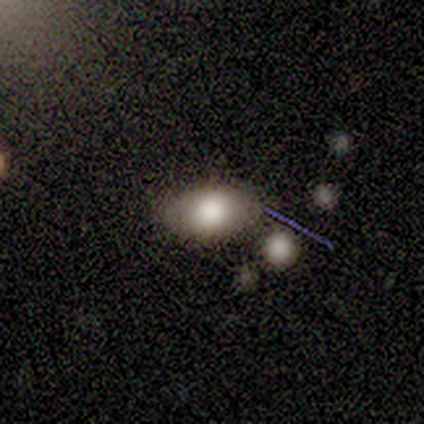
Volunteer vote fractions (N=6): smooth-or-featured: smooth: 83% | featured or disk: 17% | star or artifact: 0%
  how-rounded: in between: 100% | round: 0% | cigar-shaped: 0%
  merging: none: 67% | merger: 33% | minor disturbance: 0% | major disturbance: 0%